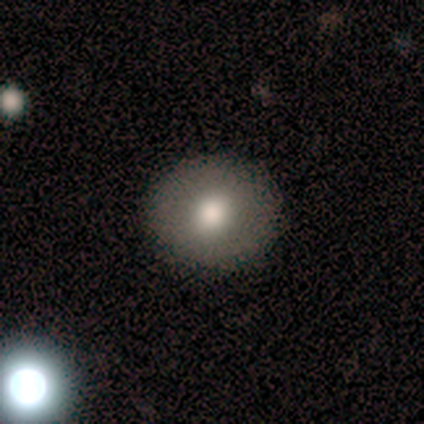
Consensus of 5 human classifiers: Q: Smooth or featured?
A: smooth (100%)
Q: How rounded?
A: round (100%)
Q: Merging?
A: none (100%)